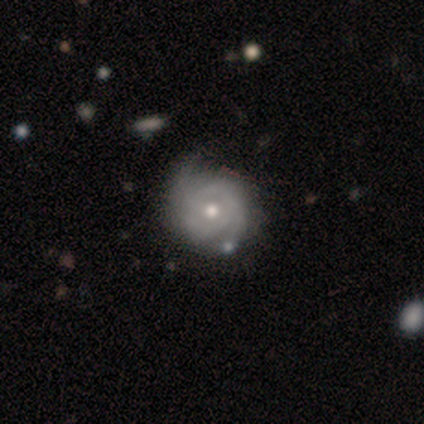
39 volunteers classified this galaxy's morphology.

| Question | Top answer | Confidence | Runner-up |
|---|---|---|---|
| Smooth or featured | featured or disk | 90% | smooth (10%) |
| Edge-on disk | no | 94% | yes (6%) |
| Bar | no | 82% | weak (15%) |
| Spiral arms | yes | 91% | no (9%) |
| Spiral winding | tight | 57% | medium (40%) |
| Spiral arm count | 2 | 67% | can't tell (20%) |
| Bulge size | moderate | 73% | small (15%) |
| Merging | none | 49% | minor disturbance (23%) |